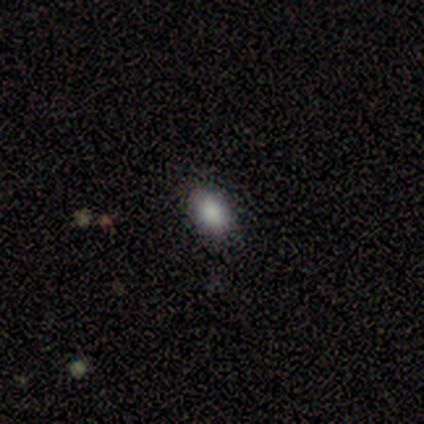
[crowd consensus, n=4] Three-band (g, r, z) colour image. It shows a smooth galaxy with no disk features (100%) that is in between round and cigar-shaped (75%). Merging: none (100%).